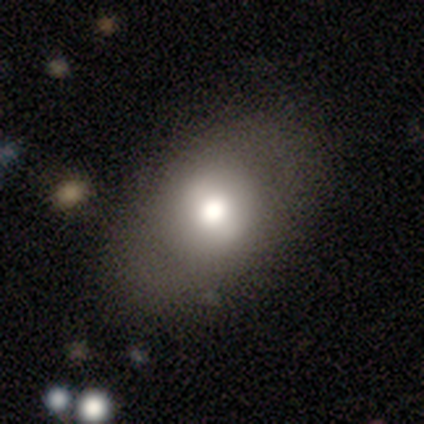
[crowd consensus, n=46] Smooth or featured? smooth (63%)
How rounded? in between (76%)
Merging? none (76%)